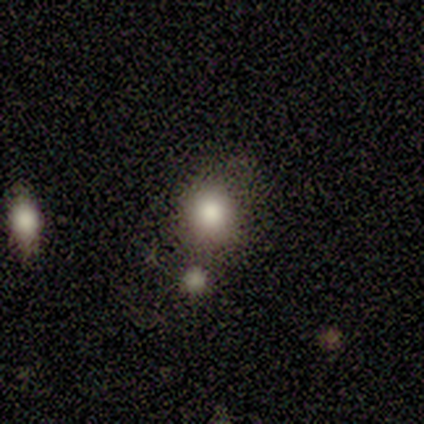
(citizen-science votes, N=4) Smooth or featured? 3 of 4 (75%) said smooth. How rounded? 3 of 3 (100%) said round. Merging? 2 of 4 (50%, tied with merger) said none.